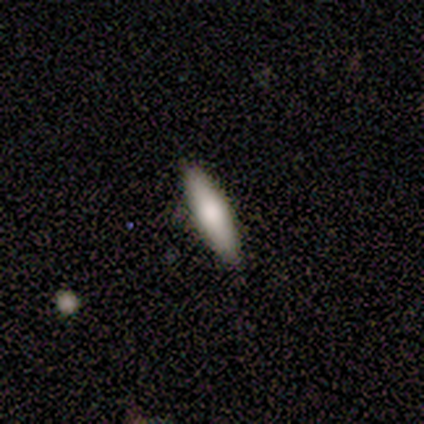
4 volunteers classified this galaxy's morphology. A smooth galaxy with no disk features (50%) that is cigar-shaped (100%).

Vote fractions:
- Smooth or featured? smooth: 50% / featured or disk: 25% / star or artifact: 25%
- How rounded? cigar-shaped: 100% / round: 0% / in between: 0%
- Merging? none: 100% / minor disturbance: 0% / major disturbance: 0% / merger: 0%